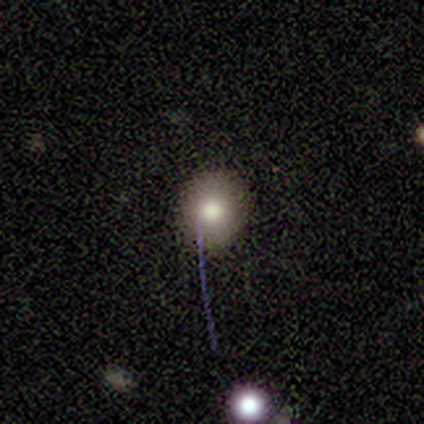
Smooth or featured: smooth — 50% (featured or disk — 25%)
How rounded: round — 50% (tied with in between — 50%)
Merging: none — 100%